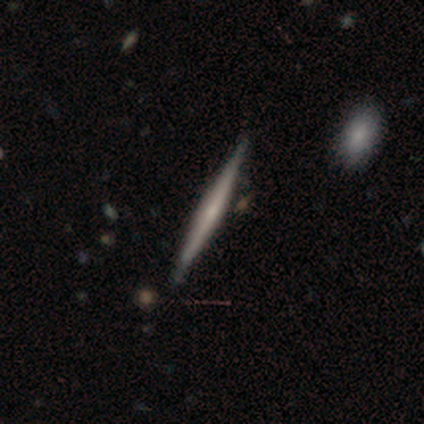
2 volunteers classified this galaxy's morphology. smooth_or_featured: featured or disk (p=0.50) [tied with: star or artifact p=0.50]
disk_edge_on: yes (p=1.00)
edge_on_bulge: rounded (p=1.00)
merging: none (p=1.00)